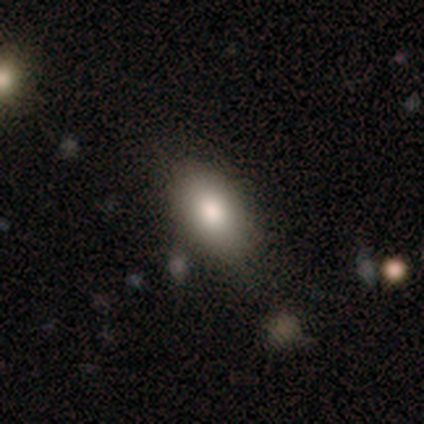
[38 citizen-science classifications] Q: Smooth or featured?
A: smooth (92%); runner-up: featured or disk (5%)
Q: How rounded?
A: in between (83%); runner-up: round (11%)
Q: Merging?
A: none (78%); runner-up: minor disturbance (8%)